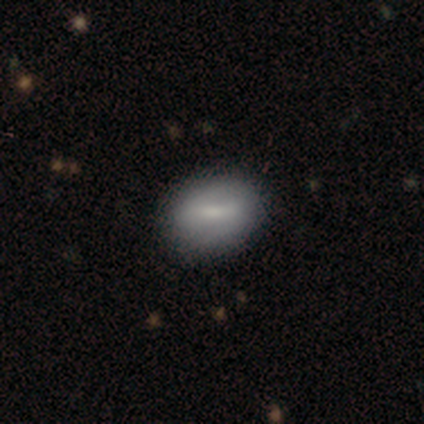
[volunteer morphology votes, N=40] smooth-or-featured: smooth: 57% | featured or disk: 40% | star or artifact: 2%
  how-rounded: in between: 65% | round: 35% | cigar-shaped: 0%
  merging: none: 64% | minor disturbance: 5% | merger: 3% | major disturbance: 0%